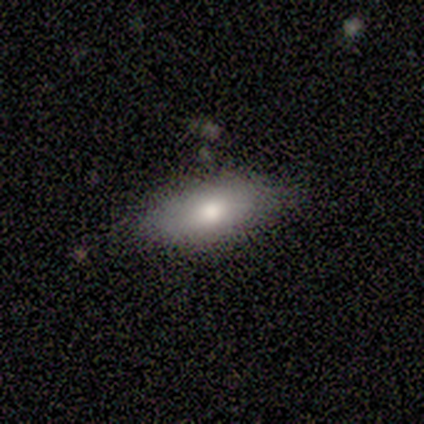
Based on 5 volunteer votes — Q: Smooth or featured?
A: smooth (80%); runner-up: star or artifact (20%)
Q: How rounded?
A: in between (100%)
Q: Merging?
A: none (100%)